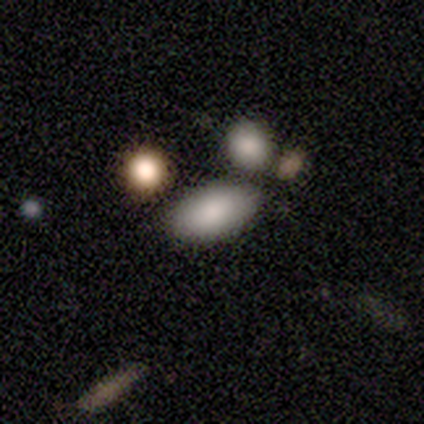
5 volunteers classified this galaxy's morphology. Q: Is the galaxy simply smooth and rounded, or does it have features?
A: smooth — 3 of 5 (60%).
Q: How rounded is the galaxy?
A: in between — 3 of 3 (100%).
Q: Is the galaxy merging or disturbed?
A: none — 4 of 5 (80%).